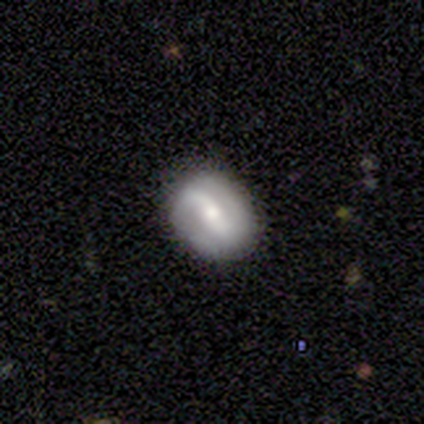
Volunteers were most divided on "bar" (3-way tie): strong: 33%, weak: 33%, no: 33%; "bulge size" (3-way tie): dominant: 33%, moderate: 33%, small: 33%, large: 0%, none: 0%. More confident: edge-on disk — no (100%); spiral arms — yes (100%); merging — none (80%); spiral winding — medium (67%); spiral arm count — 2 (67%); smooth or featured — featured or disk (60%).